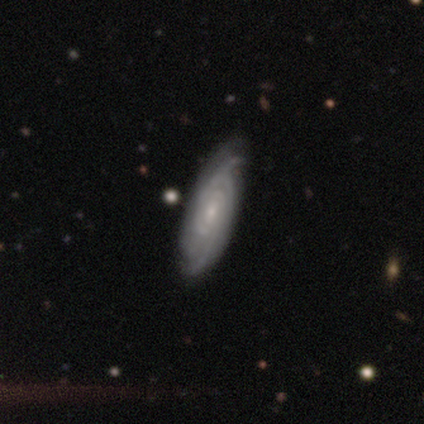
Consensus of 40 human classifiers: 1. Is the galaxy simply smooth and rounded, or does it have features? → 90% featured or disk, 8% smooth, 2% star or artifact.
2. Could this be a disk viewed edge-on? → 94% no, 6% yes.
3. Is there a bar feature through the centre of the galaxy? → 68% no, 29% weak, 3% strong.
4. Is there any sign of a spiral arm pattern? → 100% yes, 0% no.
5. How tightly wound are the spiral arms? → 79% tight, 15% medium, 6% loose.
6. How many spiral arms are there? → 53% can't tell, 18% 2, 18% 3, 9% 4, 3% more than 4, 0% 1.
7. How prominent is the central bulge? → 71% small, 24% moderate, 6% none, 0% dominant, 0% large.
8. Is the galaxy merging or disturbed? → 72% none, 13% minor disturbance, 0% major disturbance, 0% merger.